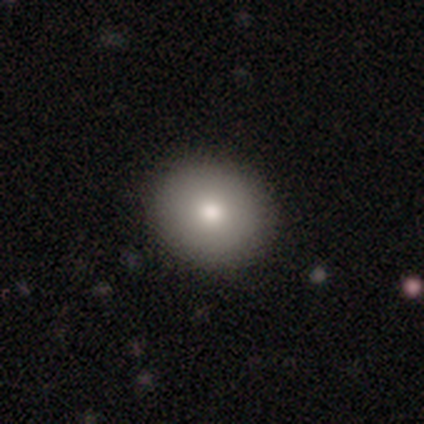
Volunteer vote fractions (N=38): Smooth or featured?
  - smooth: 71% *
  - featured or disk: 21%
  - star or artifact: 8%
How rounded?
  - round: 70% *
  - in between: 30%
  - cigar-shaped: 0%
Merging?
  - none: 94% *
  - minor disturbance: 6%
  - major disturbance: 0%
  - merger: 0%